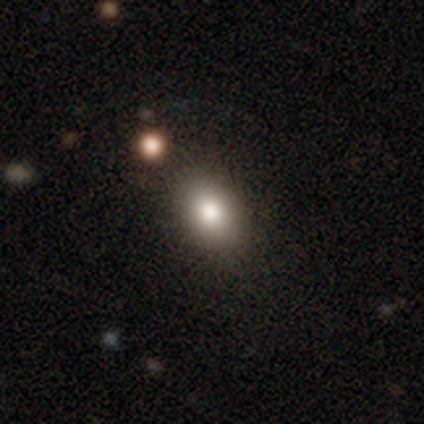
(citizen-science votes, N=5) Morphology: type=smooth (100%); roundness=in between (80%); merging=none (60%).